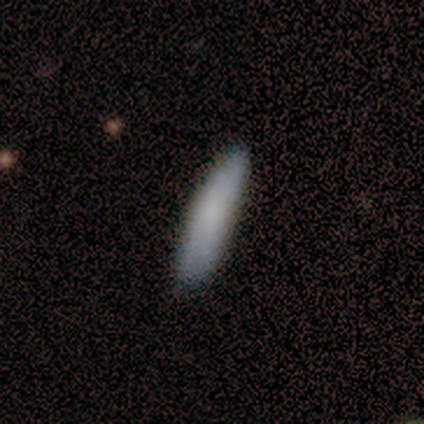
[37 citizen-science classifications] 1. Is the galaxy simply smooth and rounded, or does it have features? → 76% smooth, 24% featured or disk, 0% star or artifact.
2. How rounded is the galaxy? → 82% cigar-shaped, 18% in between, 0% round.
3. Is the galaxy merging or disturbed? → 84% none, 14% minor disturbance, 3% major disturbance, 0% merger.